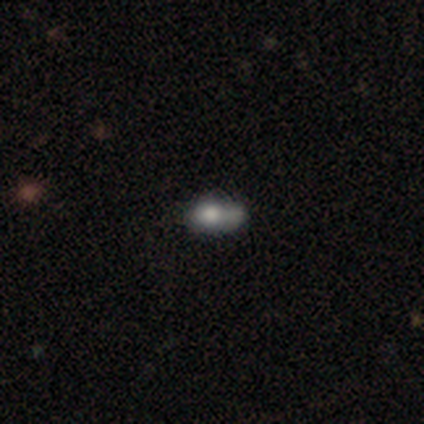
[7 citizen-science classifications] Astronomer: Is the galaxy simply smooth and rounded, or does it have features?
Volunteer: smooth — 86%.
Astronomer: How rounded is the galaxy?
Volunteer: in between — 100%.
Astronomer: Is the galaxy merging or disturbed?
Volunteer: none — 57%.